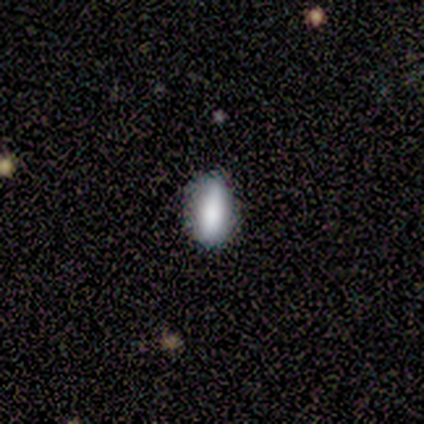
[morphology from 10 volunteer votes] Overall: smooth (90%). How rounded: in between (78%). Merging: none (100%).